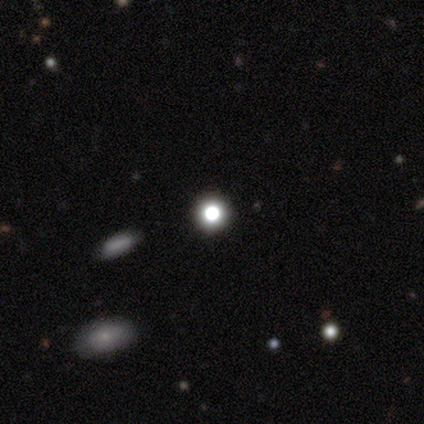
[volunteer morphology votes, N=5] Volunteers were most divided on "merging": none: 75%, minor disturbance: 25%, major disturbance: 0%, merger: 0%. More confident: how rounded — round (100%); smooth or featured — smooth (80%).